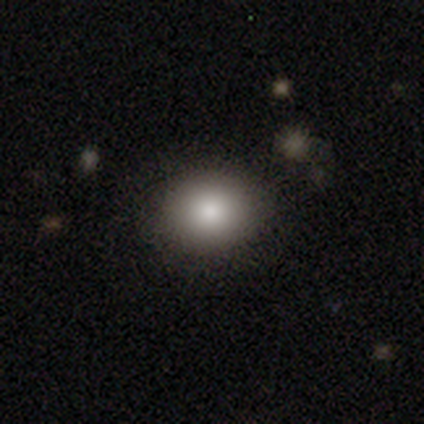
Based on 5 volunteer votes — Smooth or featured? 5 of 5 (100%) said smooth. How rounded? 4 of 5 (80%) said round. Merging? 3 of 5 (60%) said none.